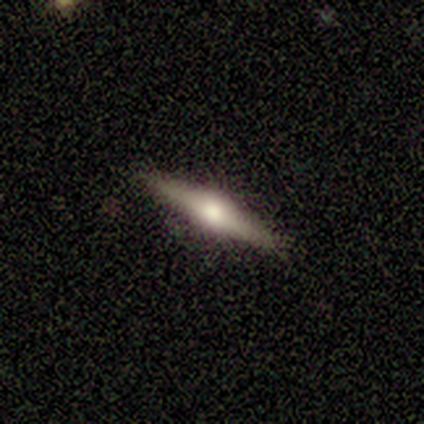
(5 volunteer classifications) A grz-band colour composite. It shows a featured or disk galaxy (60%) viewed edge-on (100%) with a rounded central bulge (100%). Merging: none (100%).